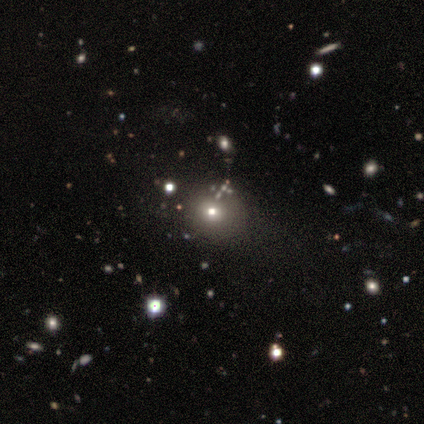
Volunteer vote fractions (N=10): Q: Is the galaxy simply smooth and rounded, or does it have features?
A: smooth — 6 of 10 (60%).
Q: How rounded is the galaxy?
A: round — 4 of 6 (67%).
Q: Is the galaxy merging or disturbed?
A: none — 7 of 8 (88%).